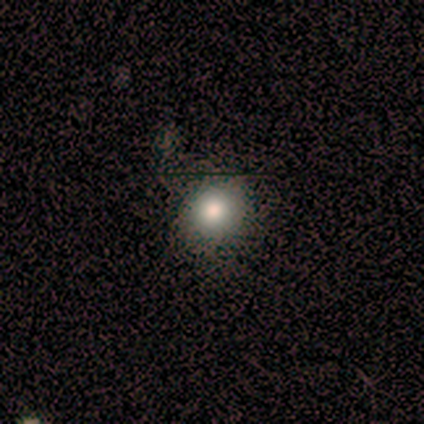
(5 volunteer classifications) Smooth or featured? 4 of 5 (80%) said smooth. How rounded? 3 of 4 (75%) said round. Merging? 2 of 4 (50%, tied with major disturbance) said none.